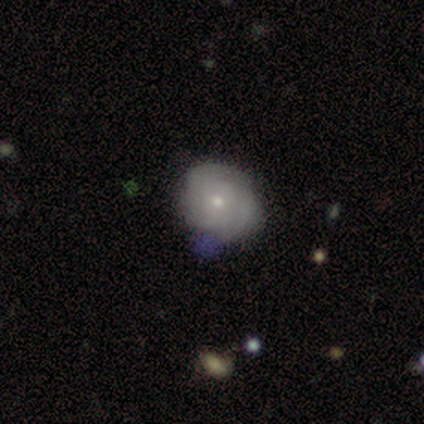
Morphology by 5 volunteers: A smooth galaxy with no disk features (40%, tied with featured or disk) that is round (100%). Merging: minor disturbance (75%).